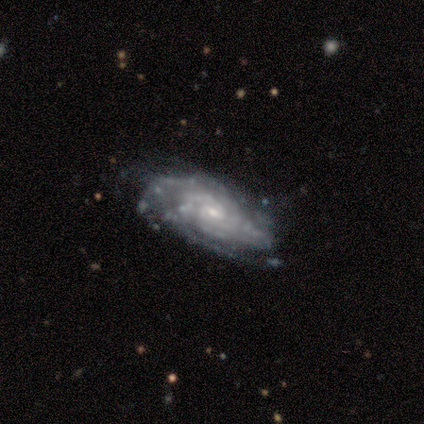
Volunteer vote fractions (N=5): This is clearly a featured or disk galaxy (80%). It is clearly not viewed edge-on (100%). Bar: clearly no (100%). Spiral arm pattern: clearly yes (100%). Spiral arm count: likely can't tell (75%). Spiral winding: likely tight (75%). Central bulge: clearly small (100%). Merging: likely minor disturbance (60%).